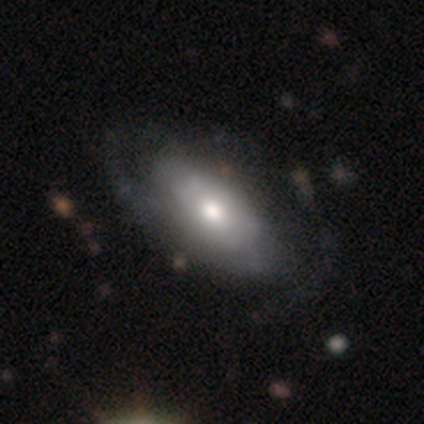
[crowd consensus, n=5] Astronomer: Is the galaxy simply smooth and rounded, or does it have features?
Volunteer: smooth — 60% (runner-up: featured or disk, 40%).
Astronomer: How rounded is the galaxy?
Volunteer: in between — 100%.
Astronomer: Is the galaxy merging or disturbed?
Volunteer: none — 40%, tied with minor disturbance at 40%.